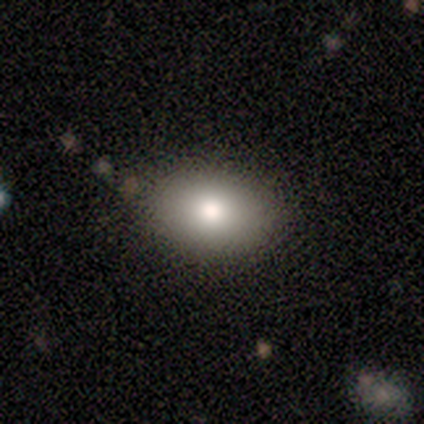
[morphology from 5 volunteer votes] Smooth or featured: smooth — 60% (featured or disk — 40%)
How rounded: in between — 100%
Merging: none — 80% (merger — 20%)